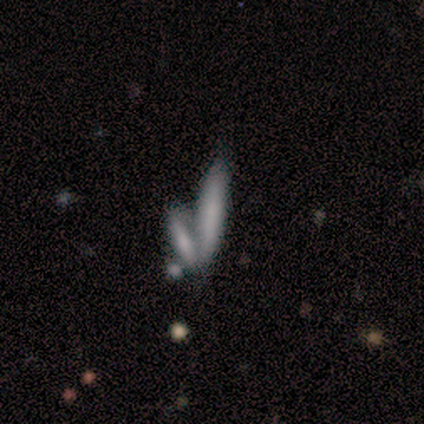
smooth 71%, featured or disk 14%, star or artifact 14%. Down the decision tree: how rounded — cigar-shaped (100%); merging — merger (67%).